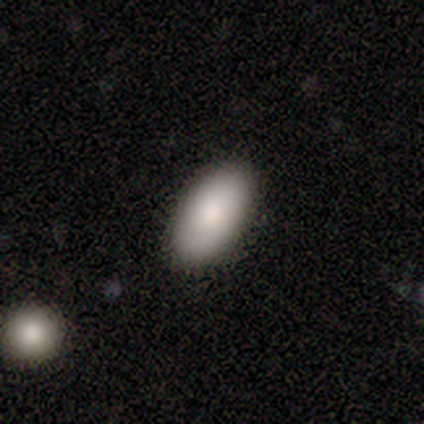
This appears to be a smooth galaxy with no disk features (83%) that is in between round and cigar-shaped (100%). Merging: none (60%).